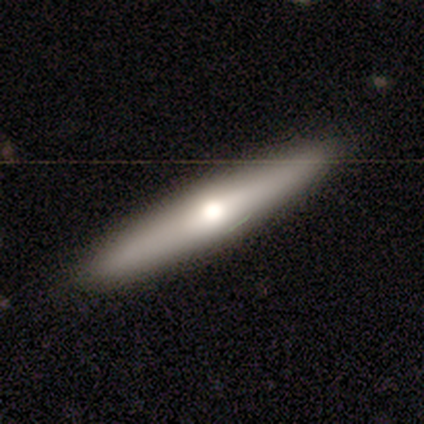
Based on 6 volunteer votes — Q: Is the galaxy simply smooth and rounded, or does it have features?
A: featured or disk — 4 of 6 (67%).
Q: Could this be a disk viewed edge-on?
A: yes — 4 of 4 (100%).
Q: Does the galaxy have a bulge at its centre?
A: rounded — 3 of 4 (75%).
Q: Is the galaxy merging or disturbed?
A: none — 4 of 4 (100%).